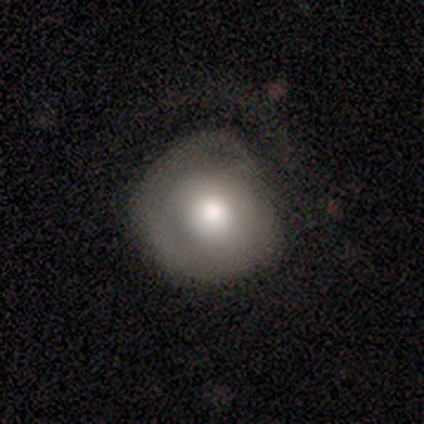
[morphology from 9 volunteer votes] smooth 78%, featured or disk 22%, star or artifact 0%. Down the decision tree: how rounded — round (71%); merging — none (56%).